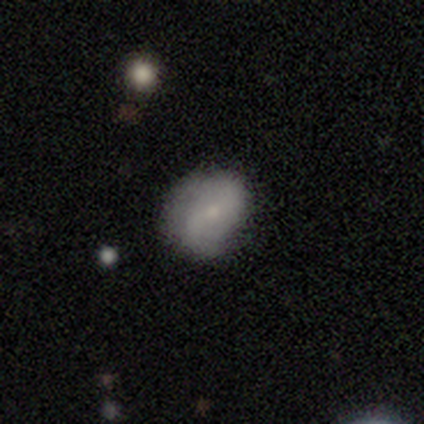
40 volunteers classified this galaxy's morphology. Smooth or featured? 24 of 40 (60%) said smooth. How rounded? 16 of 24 (67%) said in between. Merging? 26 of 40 (65%) said none.